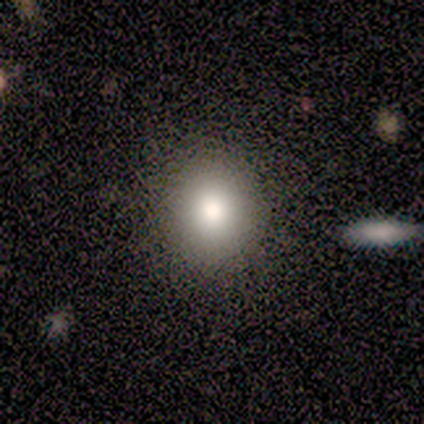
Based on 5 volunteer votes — Smooth or featured: smooth — 80% (star or artifact — 20%)
How rounded: round — 100%
Merging: none — 75% (major disturbance — 25%)